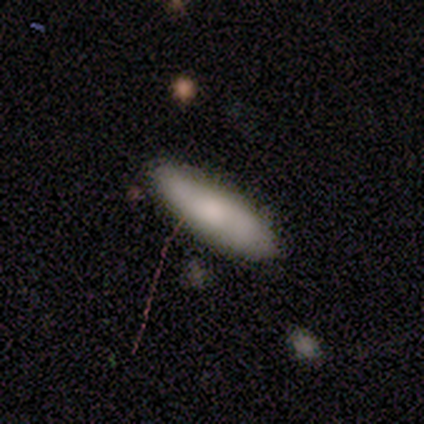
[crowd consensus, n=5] Smooth or featured?
  - smooth: 60% *
  - featured or disk: 40%
  - star or artifact: 0%
How rounded?
  - cigar-shaped: 100% *
  - round: 0%
  - in between: 0%
Merging?
  - none: 80% *
  - minor disturbance: 20%
  - major disturbance: 0%
  - merger: 0%